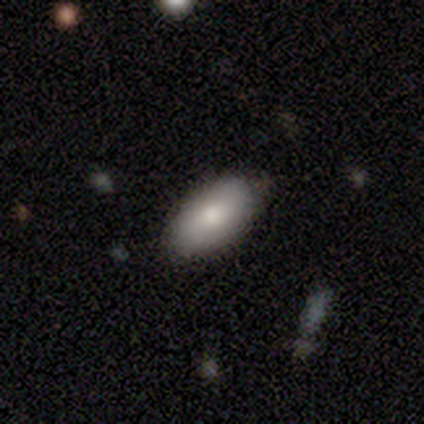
Smooth or featured? smooth (88%)
How rounded? in between (100%)
Merging? none (62%)